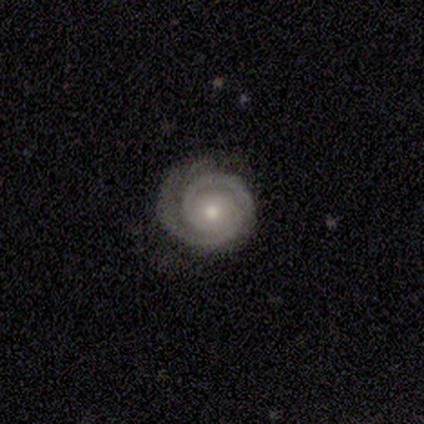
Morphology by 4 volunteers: type=featured or disk (75%); edge-on=no (100%); bar=no (100%); spiral arms=yes (67%); winding=tight (100%); arm count=2 (100%); bulge=small (67%); merging=none (50%).